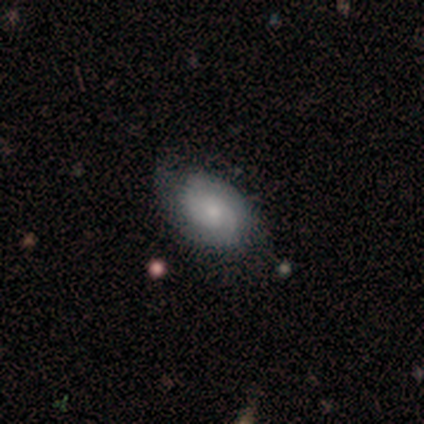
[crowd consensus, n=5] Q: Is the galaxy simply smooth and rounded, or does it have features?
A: featured or disk — 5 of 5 (100%).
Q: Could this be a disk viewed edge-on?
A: no — 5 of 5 (100%).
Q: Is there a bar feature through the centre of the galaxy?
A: no — 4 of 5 (80%).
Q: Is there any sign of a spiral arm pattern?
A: yes — 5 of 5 (100%).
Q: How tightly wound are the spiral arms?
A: tight — 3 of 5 (60%).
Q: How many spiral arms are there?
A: can't tell — 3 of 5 (60%).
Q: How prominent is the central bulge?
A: moderate — 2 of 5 (40%, tied with small).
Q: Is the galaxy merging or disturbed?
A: none — 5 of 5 (100%).